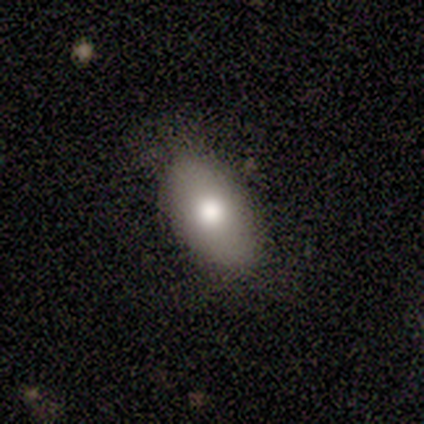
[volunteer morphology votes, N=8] Smooth or featured? smooth (50%)
How rounded? in between (100%)
Merging? none (100%)